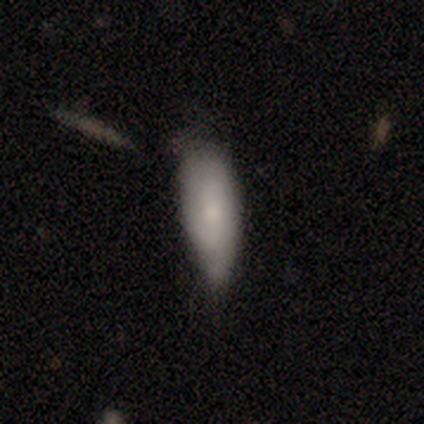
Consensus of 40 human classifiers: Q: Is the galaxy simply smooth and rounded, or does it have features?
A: smooth — 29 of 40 (72%).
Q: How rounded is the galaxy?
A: in between — 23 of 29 (79%).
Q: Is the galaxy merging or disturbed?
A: none — 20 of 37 (54%).